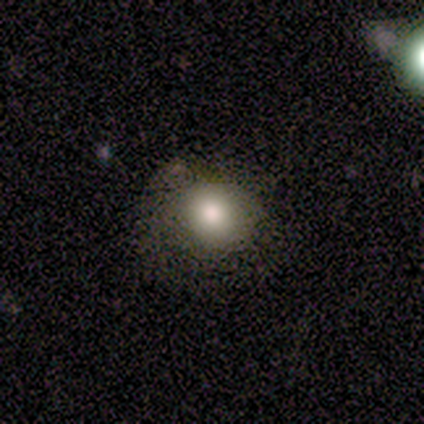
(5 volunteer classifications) A smooth galaxy with no disk features (100%) that is round (80%). Merging: none (80%).